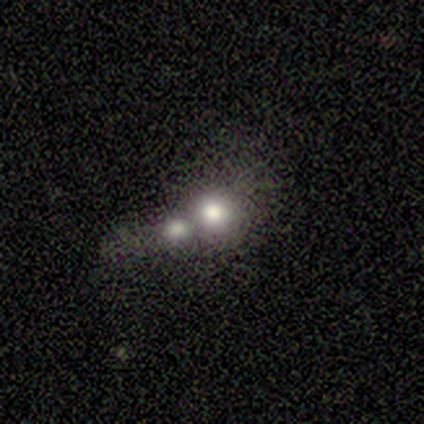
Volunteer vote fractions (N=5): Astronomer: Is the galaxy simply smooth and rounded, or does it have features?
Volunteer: smooth — 60% (runner-up: featured or disk, 40%).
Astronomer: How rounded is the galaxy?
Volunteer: round — 100%.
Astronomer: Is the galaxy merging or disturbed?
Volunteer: merger — 100%.